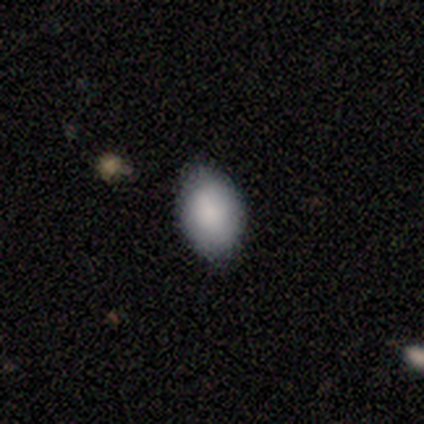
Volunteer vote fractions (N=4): Smooth or featured? 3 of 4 (75%) said smooth. How rounded? 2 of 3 (67%) said in between. Merging? 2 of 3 (67%) said none.